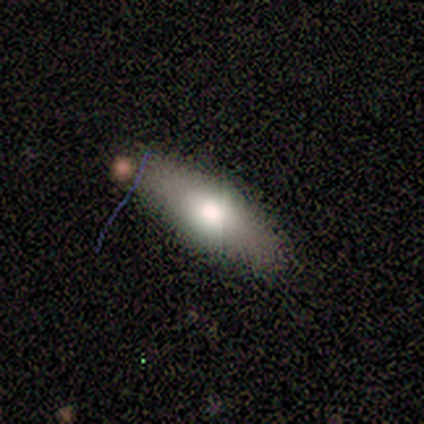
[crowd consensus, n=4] Smooth or featured? 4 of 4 (100%) said smooth. How rounded? 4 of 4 (100%) said in between. Merging? 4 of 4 (100%) said none.